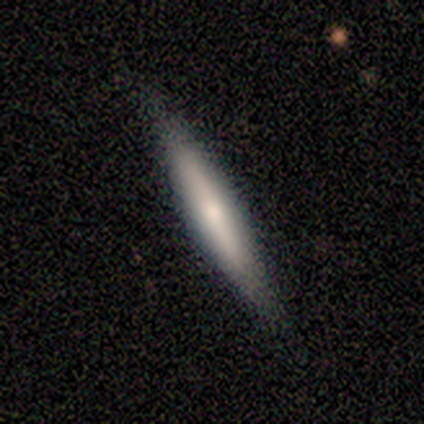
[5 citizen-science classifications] smooth-or-featured: smooth: 80% | featured or disk: 20% | star or artifact: 0%
  how-rounded: cigar-shaped: 100% | round: 0% | in between: 0%
  merging: none: 80% | minor disturbance: 20% | major disturbance: 0% | merger: 0%